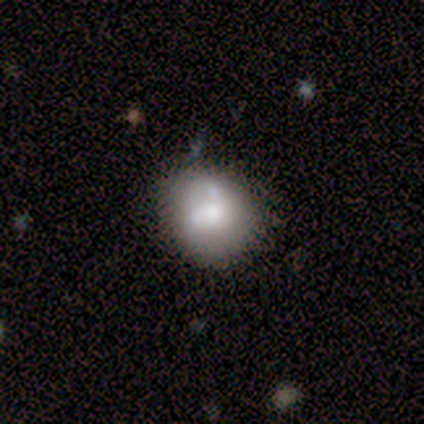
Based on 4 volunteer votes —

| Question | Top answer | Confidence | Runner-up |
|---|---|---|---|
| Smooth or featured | smooth | 75% | featured or disk (25%) |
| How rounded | round | 100% | — |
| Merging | none | 50% | minor disturbance (25%) |